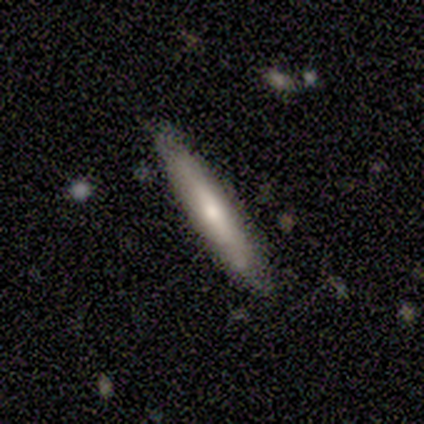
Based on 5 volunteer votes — A featured or disk galaxy (60%) viewed edge-on (100%) with no central bulge (67%).

Vote fractions:
- Smooth or featured? featured or disk: 60% / smooth: 40% / star or artifact: 0%
- Edge-on disk? yes: 100% / no: 0%
- Edge-on bulge? none: 67% / boxy: 33% / rounded: 0%
- Merging? minor disturbance: 60% / none: 40% / major disturbance: 0% / merger: 0%